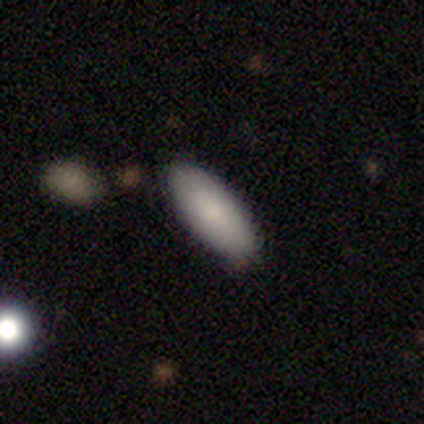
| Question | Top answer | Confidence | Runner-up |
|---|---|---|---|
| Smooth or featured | smooth | 83% | star or artifact (10%) |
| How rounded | in between | 79% | cigar-shaped (21%) |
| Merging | none | 78% | minor disturbance (16%) |